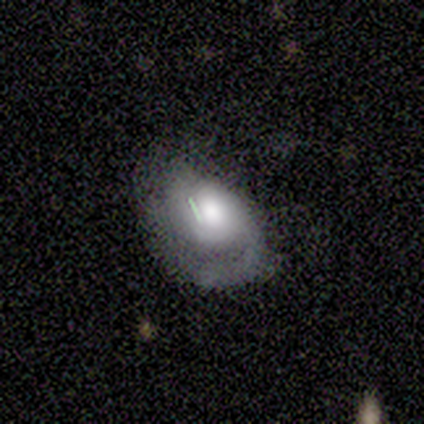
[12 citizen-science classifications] Volunteers were most divided on "merging": none: 50%, minor disturbance: 33%, major disturbance: 17%, merger: 0%. More confident: edge-on disk — no (100%); spiral arms — yes (100%); bar — no (90%); smooth or featured — featured or disk (83%); bulge size — moderate (70%); spiral arm count — 1 (60%); spiral winding — medium (50%).